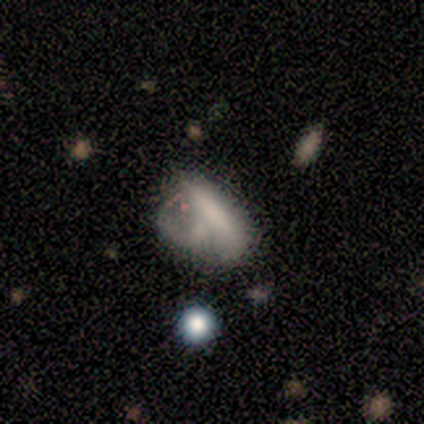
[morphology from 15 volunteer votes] Smooth or featured? smooth (47%)
How rounded? in between (71%)
Merging? major disturbance (38%)